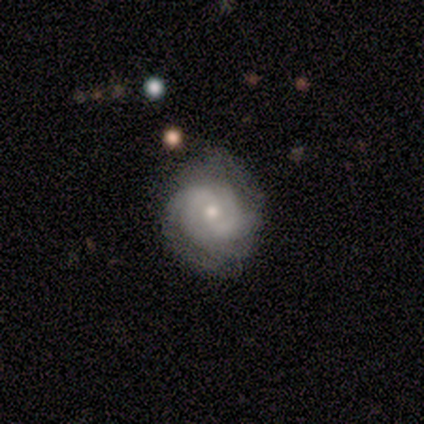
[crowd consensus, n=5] smooth-or-featured: featured or disk: 60% | smooth: 20% | star or artifact: 20%
  disk-edge-on: no: 100% | yes: 0%
    bar: no: 100% | strong: 0% | weak: 0%
    has-spiral-arms: yes: 100% | no: 0%
      spiral-winding: tight: 67% | medium: 33% | loose: 0%
      spiral-arm-count: 2: 33% (tied) | 3: 33% (tied) | 4: 33% (tied) | 1: 0% | more than 4: 0% | can't tell: 0%
    bulge-size: small: 100% | dominant: 0% | large: 0% | moderate: 0% | none: 0%
  merging: none: 75% | minor disturbance: 25% | major disturbance: 0% | merger: 0%